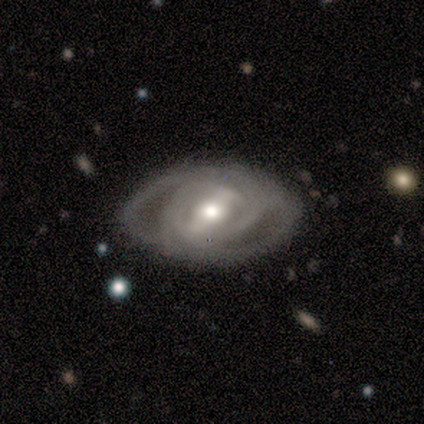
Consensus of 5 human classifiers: This appears to be a featured or disk galaxy (100%) with a strong bar (40%, tied with weak), 1 (33%, tied with 2 and can't tell) loose (67%) spiral arms (60%) and a moderate central bulge (100%). Merging: none (60%).